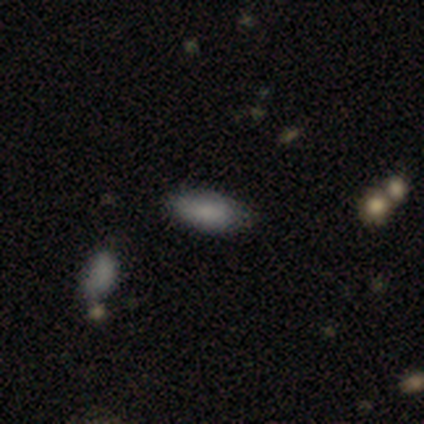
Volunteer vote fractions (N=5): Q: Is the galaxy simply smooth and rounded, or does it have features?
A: smooth — 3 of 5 (60%).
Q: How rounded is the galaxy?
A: in between — 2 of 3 (67%).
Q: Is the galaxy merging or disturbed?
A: none — 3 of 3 (100%).